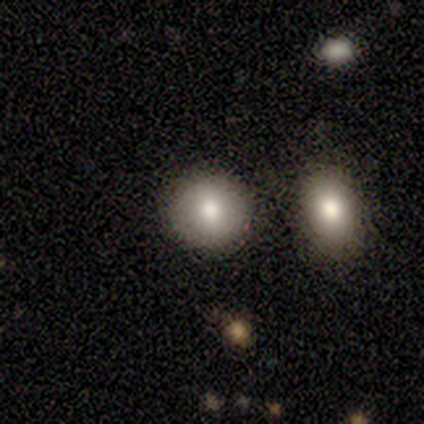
This appears to be a smooth galaxy with no disk features (80%) that is round (100%). Merging: none (60%).